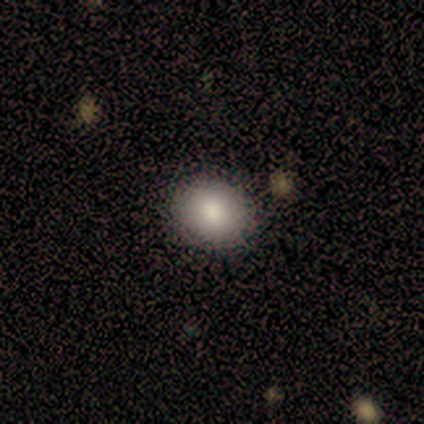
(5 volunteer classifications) smooth-or-featured: smooth: 100% | featured or disk: 0% | star or artifact: 0%
  how-rounded: round: 60% | in between: 40% | cigar-shaped: 0%
  merging: none: 100% | minor disturbance: 0% | major disturbance: 0% | merger: 0%